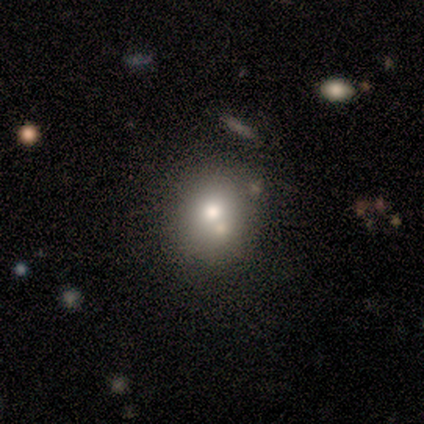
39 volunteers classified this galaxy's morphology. A smooth galaxy with no disk features (64%) that is round (72%). Merging: none (48%).